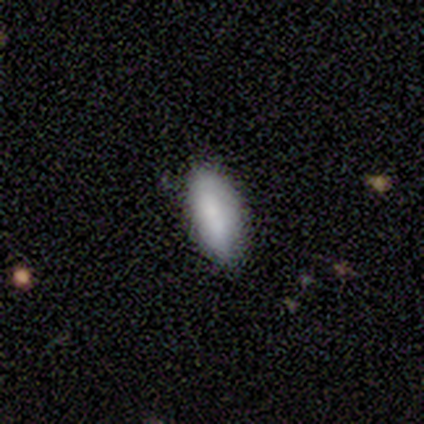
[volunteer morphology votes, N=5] A smooth galaxy with no disk features (100%) that is in between round and cigar-shaped (100%).

Vote fractions:
- Smooth or featured? smooth: 100% / featured or disk: 0% / star or artifact: 0%
- How rounded? in between: 100% / round: 0% / cigar-shaped: 0%
- Merging? minor disturbance: 60% / none: 40% / major disturbance: 0% / merger: 0%